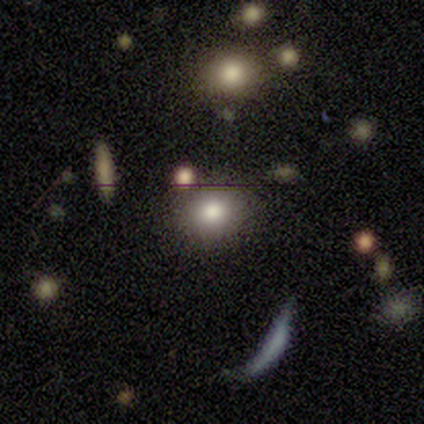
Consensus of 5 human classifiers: Smooth or featured? 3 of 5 (60%) said smooth. How rounded? 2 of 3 (67%) said round. Merging? 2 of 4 (50%, tied with minor disturbance) said none.